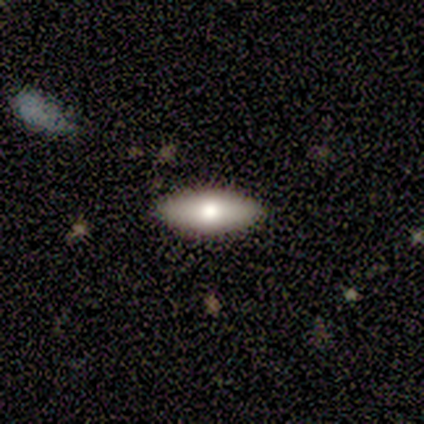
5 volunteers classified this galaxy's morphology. Smooth or featured? smooth (100%)
How rounded? in between (100%)
Merging? none (100%)